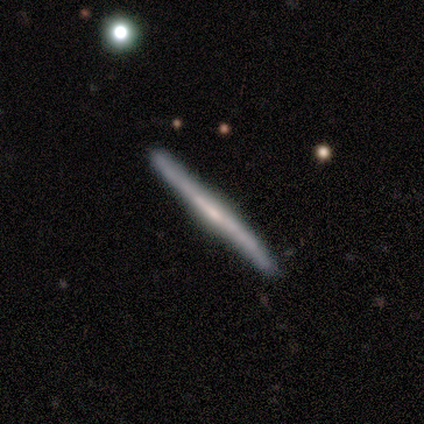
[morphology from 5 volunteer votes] Smooth or featured? 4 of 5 (80%) said featured or disk. Edge-on disk? 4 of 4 (100%) said yes. Edge-on bulge? 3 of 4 (75%) said rounded. Merging? 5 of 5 (100%) said none.